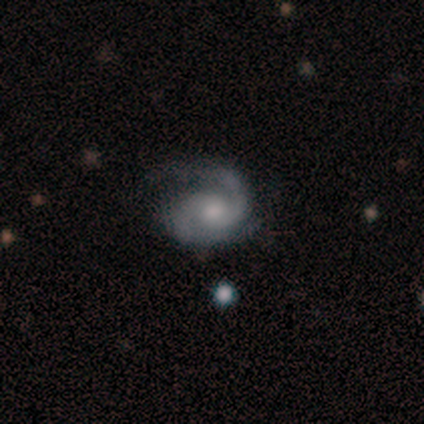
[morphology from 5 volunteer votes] Q: Smooth or featured?
A: featured or disk (80%); runner-up: smooth (20%)
Q: Edge-on disk?
A: no (100%)
Q: Bar?
A: no (100%)
Q: Spiral arms?
A: yes (100%)
Q: Spiral winding?
A: medium (50%); runner-up: tight (25%)
Q: Spiral arm count?
A: 2 (100%)
Q: Bulge size?
A: none (50%); runner-up: large (25%)
Q: Merging?
A: minor disturbance (60%); runner-up: none (20%)